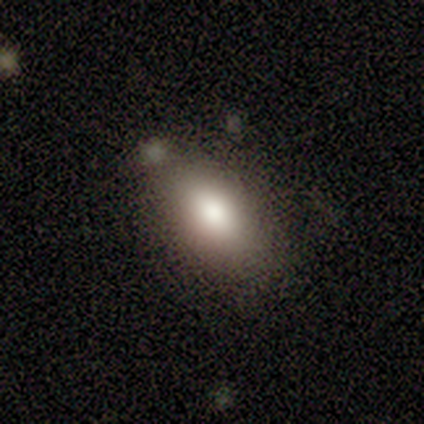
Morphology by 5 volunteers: Smooth or featured: smooth — 60% (featured or disk — 20%)
How rounded: in between — 100%
Merging: none — 50% (minor disturbance — 25%)